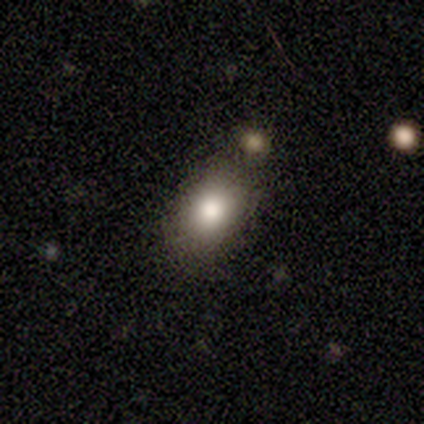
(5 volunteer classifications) Overall: smooth (80%). How rounded: in between (100%). Merging: none (40%, tied with minor disturbance).